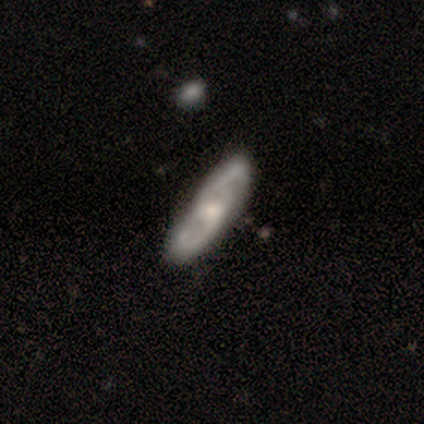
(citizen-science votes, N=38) featured or disk 76%, smooth 18%, star or artifact 5%. Down the decision tree: edge-on disk — no (93%); bar — no (63%); spiral arms — yes (93%); spiral arm count — 2 (84%); spiral winding — medium (40%); bulge size — moderate (33%, tied with small); merging — none (81%).